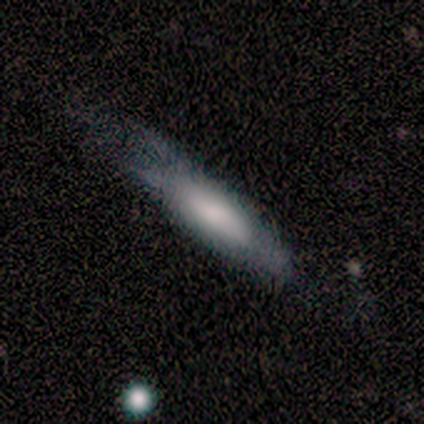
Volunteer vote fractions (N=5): This appears to be a smooth galaxy with no disk features (80%) that is in between round and cigar-shaped (50%, tied with cigar-shaped). Merging: minor disturbance (40%, tied with major disturbance).